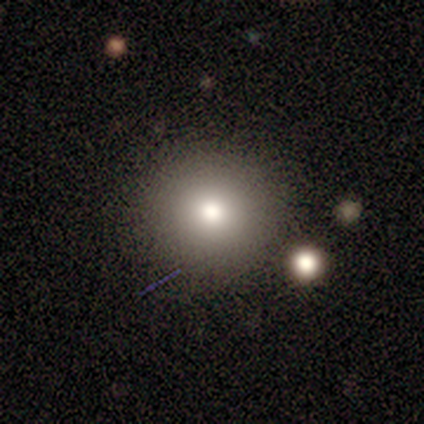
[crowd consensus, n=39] A smooth galaxy with no disk features (69%) that is round (93%).

Vote fractions:
- Smooth or featured? smooth: 69% / star or artifact: 26% / featured or disk: 5%
- How rounded? round: 93% / in between: 7% / cigar-shaped: 0%
- Merging? none: 76% / minor disturbance: 21% / merger: 3% / major disturbance: 0%